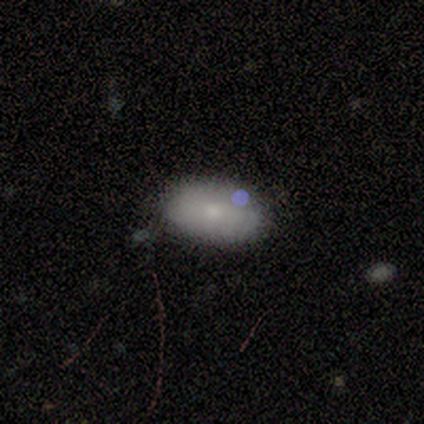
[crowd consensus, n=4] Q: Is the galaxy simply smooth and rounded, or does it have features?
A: smooth — 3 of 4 (75%).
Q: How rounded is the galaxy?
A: in between — 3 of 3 (100%).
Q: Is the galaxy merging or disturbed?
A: none — 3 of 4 (75%).